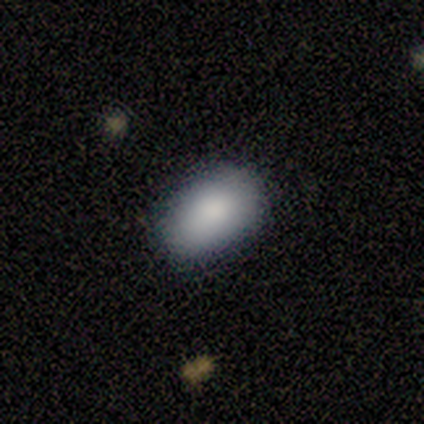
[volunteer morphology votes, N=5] Q: Smooth or featured?
A: smooth (80%); runner-up: featured or disk (20%)
Q: How rounded?
A: in between (100%)
Q: Merging?
A: none (80%); runner-up: minor disturbance (20%)